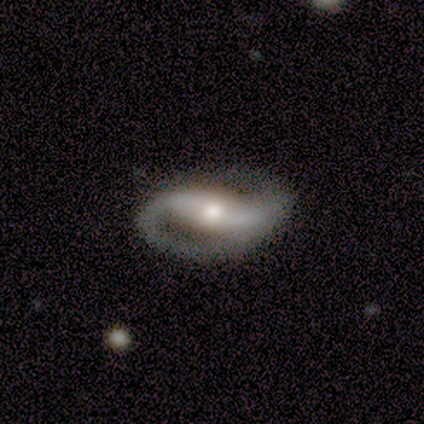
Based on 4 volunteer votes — Q: Smooth or featured?
A: featured or disk (75%); runner-up: smooth (25%)
Q: Edge-on disk?
A: no (100%)
Q: Bar?
A: strong (67%); runner-up: weak (33%)
Q: Spiral arms?
A: yes (100%)
Q: Spiral winding?
A: loose (67%); runner-up: medium (33%)
Q: Spiral arm count?
A: 2 (100%)
Q: Bulge size?
A: moderate (67%); runner-up: small (33%)
Q: Merging?
A: none (75%); runner-up: major disturbance (25%)